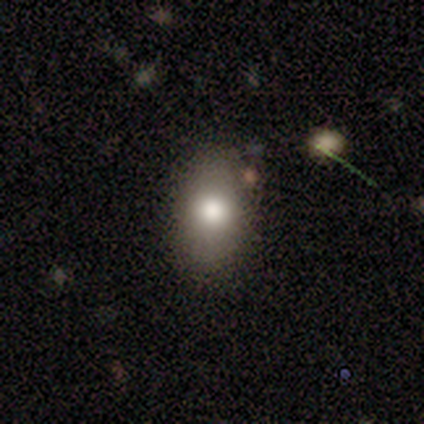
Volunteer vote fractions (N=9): smooth 78%, featured or disk 22%, star or artifact 0%. Down the decision tree: how rounded — in between (71%); merging — none (89%).